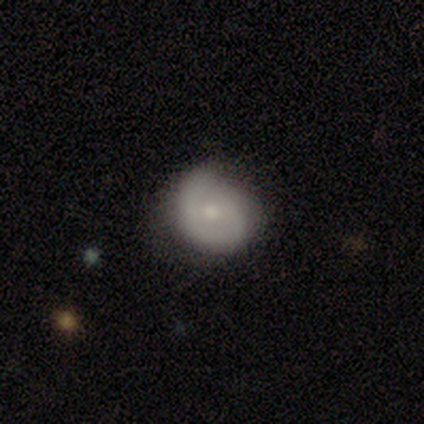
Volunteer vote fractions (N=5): smooth-or-featured: smooth: 40% (tied) | featured or disk: 40% (tied) | star or artifact: 20%
  how-rounded: round: 50% (tied) | in between: 50% (tied) | cigar-shaped: 0%
  merging: minor disturbance: 100% | none: 0% | major disturbance: 0% | merger: 0%